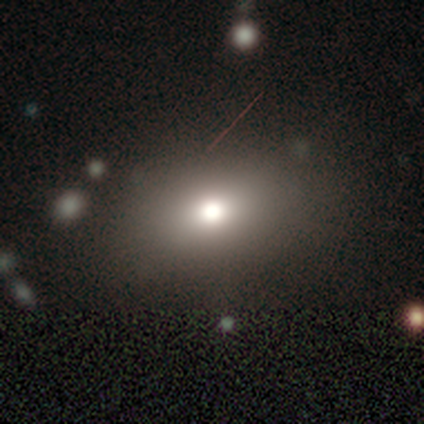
Smooth or featured?
  - smooth: 79% *
  - featured or disk: 14%
  - star or artifact: 7%
How rounded?
  - in between: 91% *
  - round: 9%
  - cigar-shaped: 0%
Merging?
  - none: 85% *
  - minor disturbance: 15%
  - major disturbance: 0%
  - merger: 0%